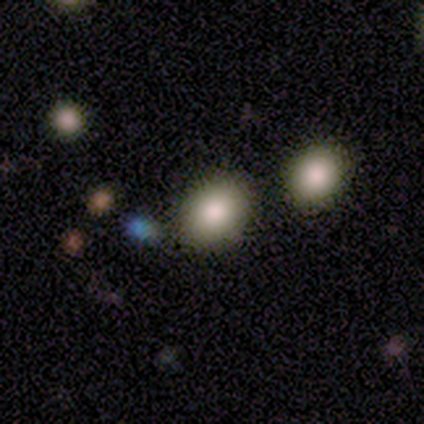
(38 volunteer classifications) Smooth or featured? 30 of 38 (79%) said smooth. How rounded? 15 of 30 (50%) said round. Merging? 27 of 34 (79%) said none.